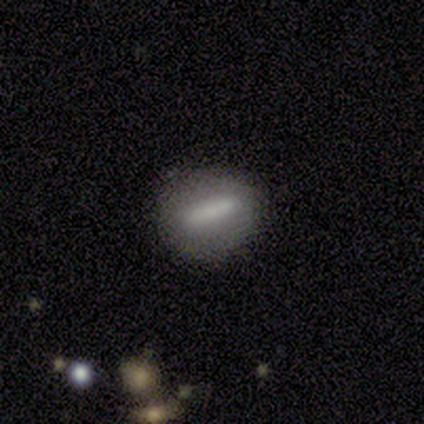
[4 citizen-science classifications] A smooth galaxy with no disk features (100%) that is cigar-shaped (75%).

Vote fractions:
- Smooth or featured? smooth: 100% / featured or disk: 0% / star or artifact: 0%
- How rounded? cigar-shaped: 75% / in between: 25% / round: 0%
- Merging? none: 100% / minor disturbance: 0% / major disturbance: 0% / merger: 0%